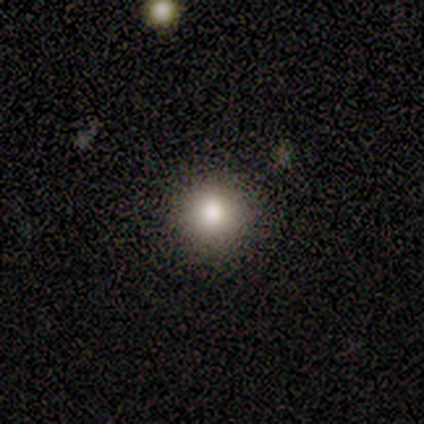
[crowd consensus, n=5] smooth-or-featured: star or artifact: 60% | smooth: 40% | featured or disk: 0%